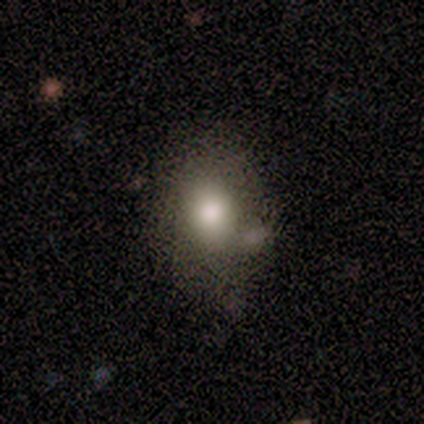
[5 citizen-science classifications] This appears to be a smooth galaxy with no disk features (100%) that is round (60%). Merging: none (60%).